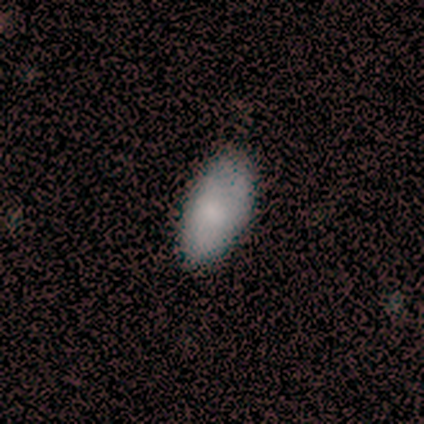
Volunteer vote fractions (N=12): smooth 100%, featured or disk 0%, star or artifact 0%. Down the decision tree: how rounded — in between (92%); merging — none (83%).